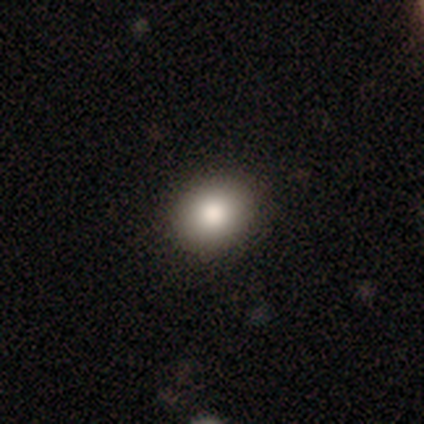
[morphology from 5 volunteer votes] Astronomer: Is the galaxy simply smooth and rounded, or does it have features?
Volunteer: smooth — 80%.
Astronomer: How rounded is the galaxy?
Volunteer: round — 50%, tied with in between at 50%.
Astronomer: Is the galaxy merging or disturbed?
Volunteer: none — 100%.